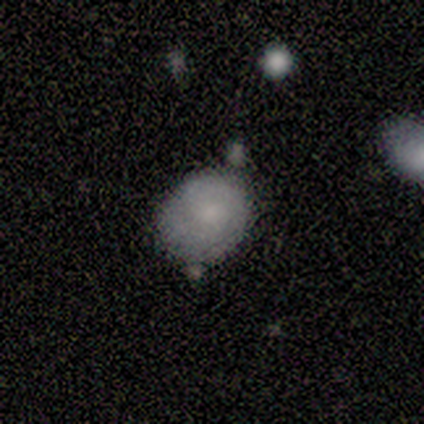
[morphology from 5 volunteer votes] type=smooth (100%); roundness=in between (60%); merging=none (60%).